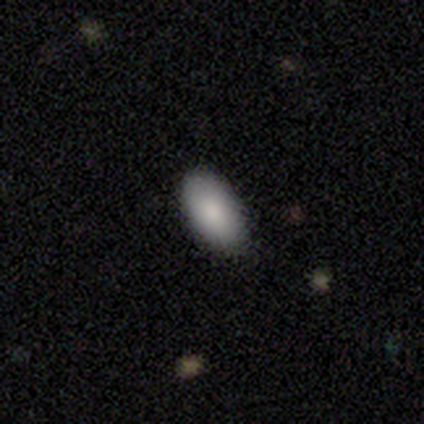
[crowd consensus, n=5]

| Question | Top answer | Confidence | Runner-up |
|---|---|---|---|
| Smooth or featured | smooth | 100% | — |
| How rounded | in between | 100% | — |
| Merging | none | 80% | minor disturbance (20%) |